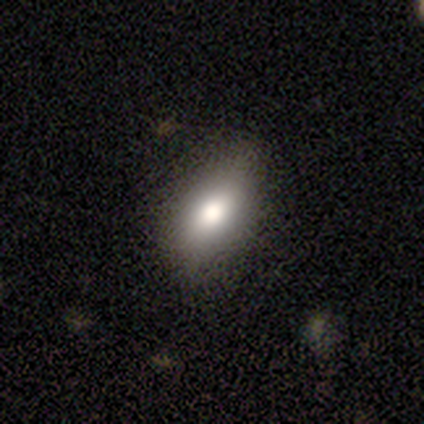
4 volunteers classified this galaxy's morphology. Q: Smooth or featured?
A: smooth (75%); runner-up: star or artifact (25%)
Q: How rounded?
A: in between (100%)
Q: Merging?
A: none (67%); runner-up: minor disturbance (33%)